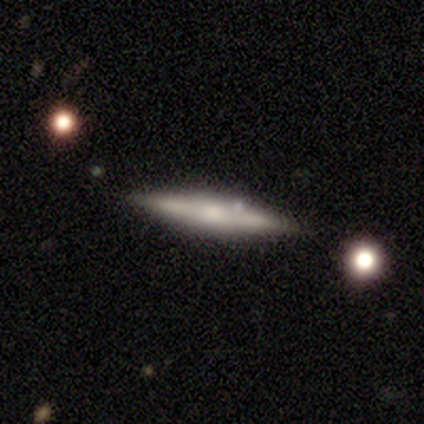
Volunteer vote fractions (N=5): Q: Smooth or featured?
A: featured or disk (80%); runner-up: smooth (20%)
Q: Edge-on disk?
A: yes (100%)
Q: Edge-on bulge?
A: rounded (100%)
Q: Merging?
A: none (100%)